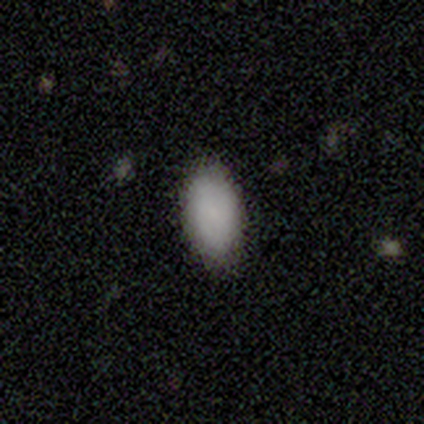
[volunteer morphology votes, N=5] type=smooth (100%); roundness=in between (100%); merging=none (100%).